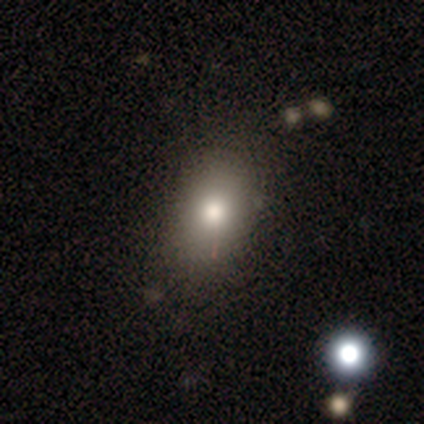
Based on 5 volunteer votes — Smooth or featured: smooth — 100%
How rounded: in between — 100%
Merging: none — 100%